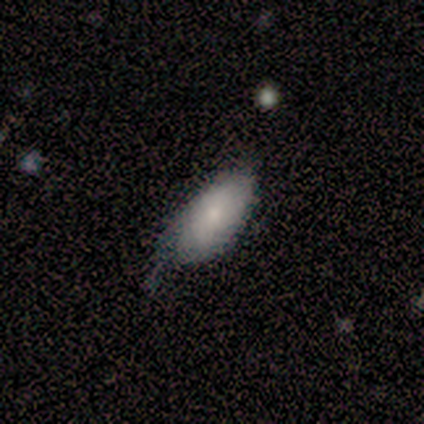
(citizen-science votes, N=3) Smooth or featured? smooth (100%)
How rounded? in between (100%)
Merging? minor disturbance (67%)